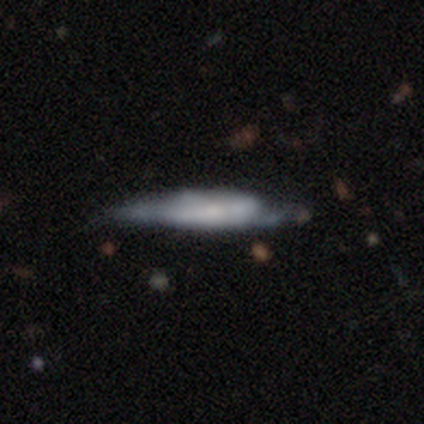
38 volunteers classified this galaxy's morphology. This is likely a featured or disk galaxy (61%). It is likely viewed edge-on (74%). Edge-on bulge: possibly boxy (47%). Merging: marginally minor disturbance (33%).